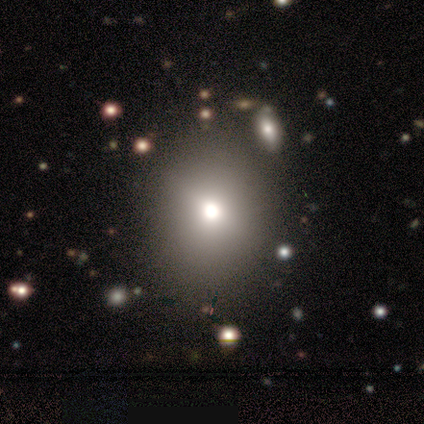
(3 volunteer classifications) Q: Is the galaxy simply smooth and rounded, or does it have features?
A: featured or disk — 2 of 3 (67%).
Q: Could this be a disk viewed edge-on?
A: no — 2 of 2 (100%).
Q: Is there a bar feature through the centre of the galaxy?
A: no — 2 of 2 (100%).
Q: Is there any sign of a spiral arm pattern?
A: no — 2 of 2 (100%).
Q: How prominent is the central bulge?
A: dominant — 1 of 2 (50%, tied with moderate).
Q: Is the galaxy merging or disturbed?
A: none — 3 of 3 (100%).